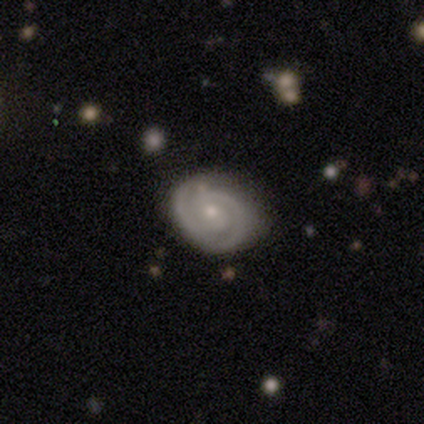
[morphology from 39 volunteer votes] Volunteers were most divided on "bar": no: 59%, weak: 32%, strong: 9%. More confident: edge-on disk — no (100%); spiral arms — yes (100%); smooth or featured — featured or disk (87%); merging — none (85%); bulge size — small (74%); spiral arm count — 2 (71%); spiral winding — tight (68%).